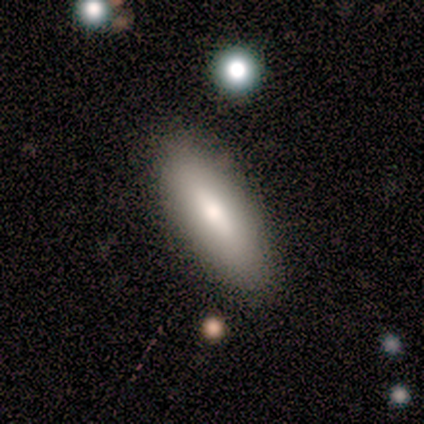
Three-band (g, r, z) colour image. It shows a smooth galaxy with no disk features (80%) that is in between round and cigar-shaped (100%). Merging: none (80%).